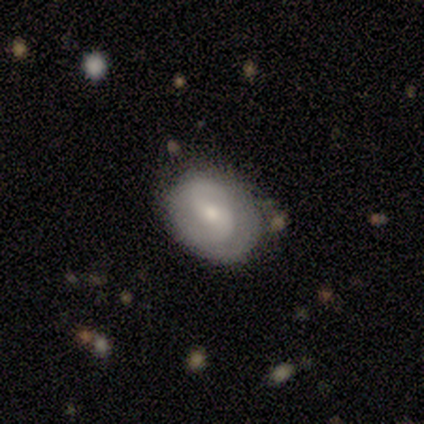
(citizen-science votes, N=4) This appears to be a featured or disk galaxy (75%) with a weak bar (67%), 2 (100%) medium (50%, tied with loose) spiral arms (67%) and a small central bulge (67%). Merging: none (75%).